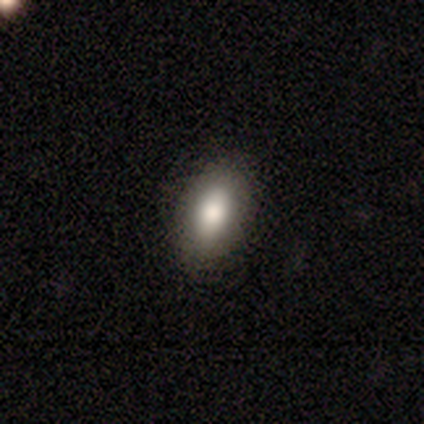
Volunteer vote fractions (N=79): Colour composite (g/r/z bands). It shows a smooth galaxy with no disk features (80%) that is in between round and cigar-shaped (94%). Merging: none (48%).